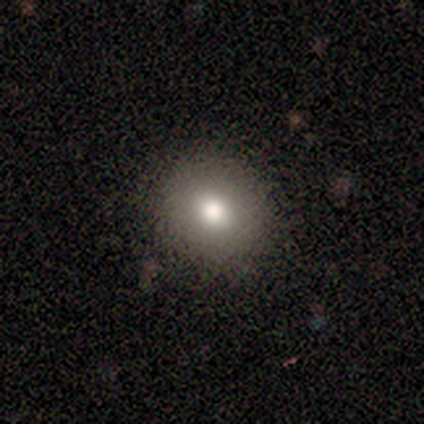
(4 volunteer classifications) Volunteers were most divided on "how rounded": round: 75%, in between: 25%, cigar-shaped: 0%. More confident: smooth or featured — smooth (100%); merging — none (75%).